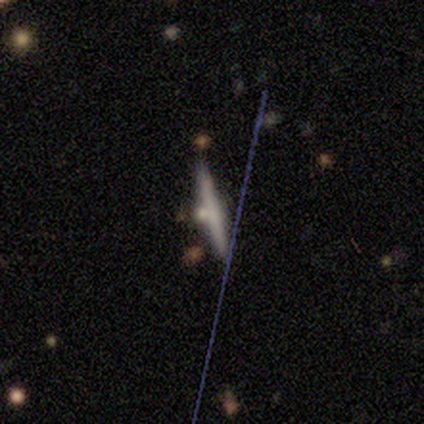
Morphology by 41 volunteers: Smooth or featured? 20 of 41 (49%) said smooth. How rounded? 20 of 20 (100%) said cigar-shaped. Merging? 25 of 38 (66%) said none.